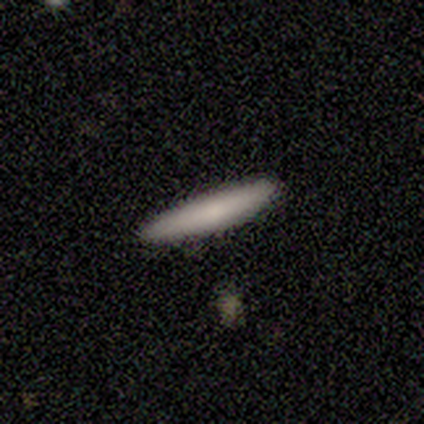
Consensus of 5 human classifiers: A smooth galaxy with no disk features (80%) that is cigar-shaped (75%). Merging: none (100%).